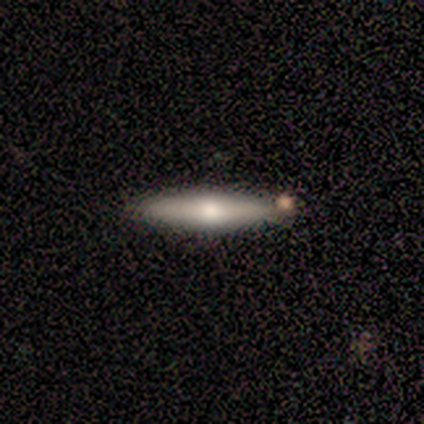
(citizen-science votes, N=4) Smooth or featured? smooth (50%, tied with featured or disk)
How rounded? cigar-shaped (100%)
Merging? none (100%)